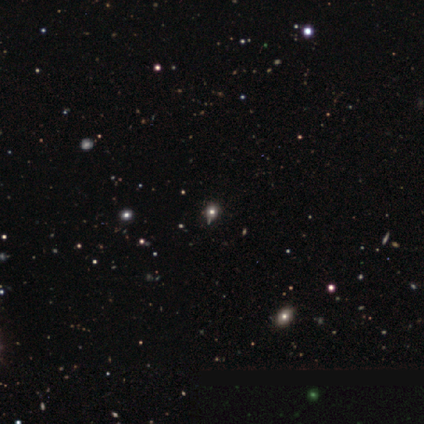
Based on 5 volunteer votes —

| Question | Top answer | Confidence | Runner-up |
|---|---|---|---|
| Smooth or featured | star or artifact | 80% | smooth (20%) |